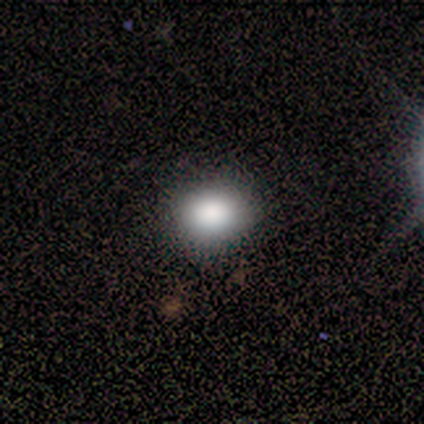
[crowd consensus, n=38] Volunteers were most divided on "how rounded": in between: 53%, round: 47%, cigar-shaped: 0%. More confident: merging — none (97%); smooth or featured — smooth (79%).